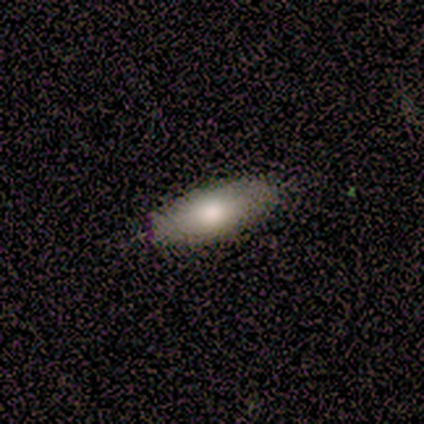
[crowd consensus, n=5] Q: Smooth or featured?
A: smooth (100%)
Q: How rounded?
A: in between (80%); runner-up: cigar-shaped (20%)
Q: Merging?
A: none (80%); runner-up: minor disturbance (20%)